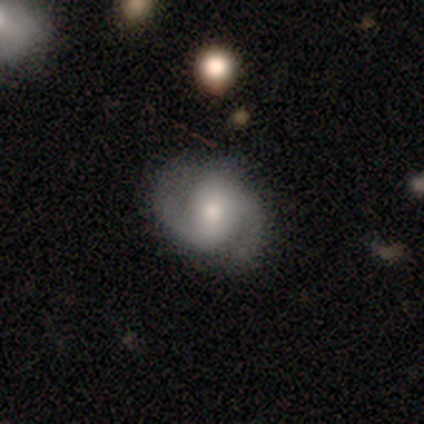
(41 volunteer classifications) Overall: featured or disk (85%). Edge-on disk: no (97%). Bar: weak (44%; no 38%). Spiral arms: yes (97%). Spiral arm count: 2 (97%). Spiral winding: medium (42%; tight 39%). Bulge size: moderate (68%). Merging: none (78%).